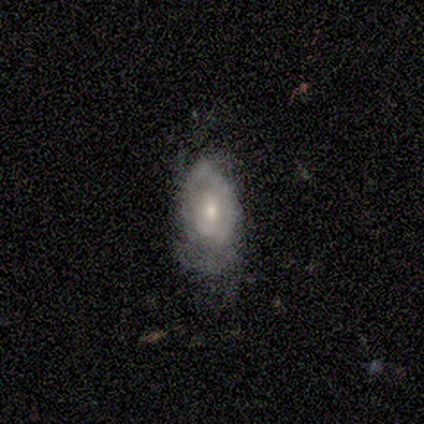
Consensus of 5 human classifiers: Smooth or featured? 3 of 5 (60%) said smooth. How rounded? 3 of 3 (100%) said in between. Merging? 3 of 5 (60%) said none.